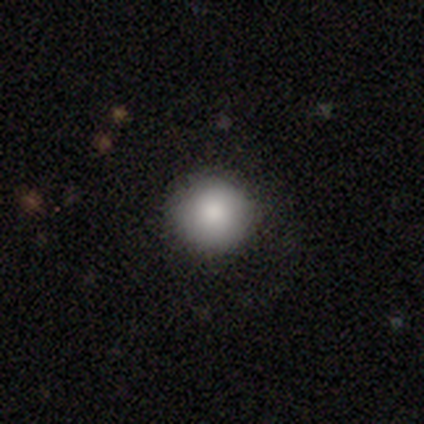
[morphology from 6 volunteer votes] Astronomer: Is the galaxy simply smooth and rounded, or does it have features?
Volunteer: smooth — 67%.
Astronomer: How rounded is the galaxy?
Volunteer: round — 100%.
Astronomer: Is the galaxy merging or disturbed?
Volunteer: none — 100%.